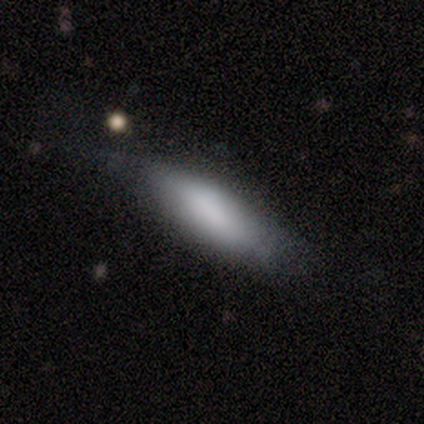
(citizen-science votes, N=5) smooth_or_featured: smooth (p=1.00)
how_rounded: in between (p=1.00)
merging: none (p=0.80) [alt: minor disturbance p=0.20]